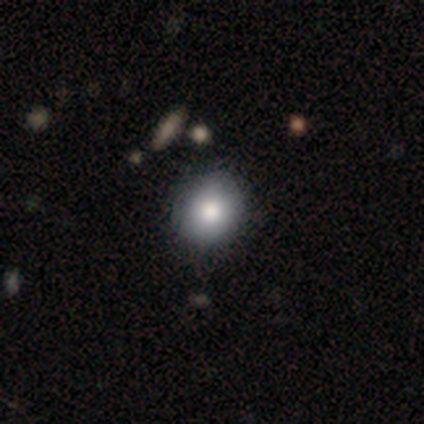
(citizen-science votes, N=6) A smooth galaxy with no disk features (83%) that is round (60%).

Vote fractions:
- Smooth or featured? smooth: 83% / featured or disk: 17% / star or artifact: 0%
- How rounded? round: 60% / in between: 40% / cigar-shaped: 0%
- Merging? none: 100% / minor disturbance: 0% / major disturbance: 0% / merger: 0%